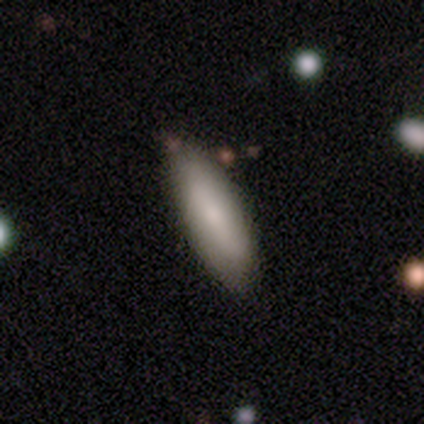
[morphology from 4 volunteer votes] Smooth or featured? 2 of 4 (50%) said featured or disk. Edge-on disk? 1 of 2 (50%, tied with no) said yes. Edge-on bulge? 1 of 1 (100%) said none. Merging? 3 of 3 (100%) said none.